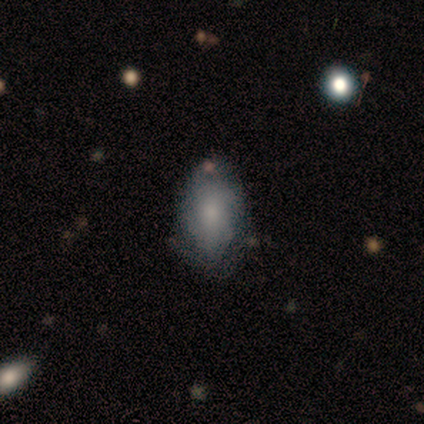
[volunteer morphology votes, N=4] type=smooth (75%); roundness=in between (100%); merging=none (50%, tied with minor disturbance).